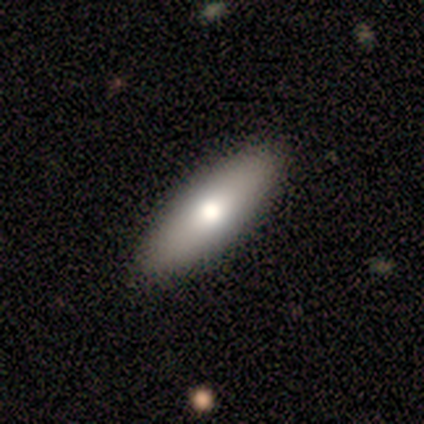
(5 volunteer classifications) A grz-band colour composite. It shows a smooth galaxy with no disk features (80%) that is cigar-shaped (75%). Merging: none (100%).